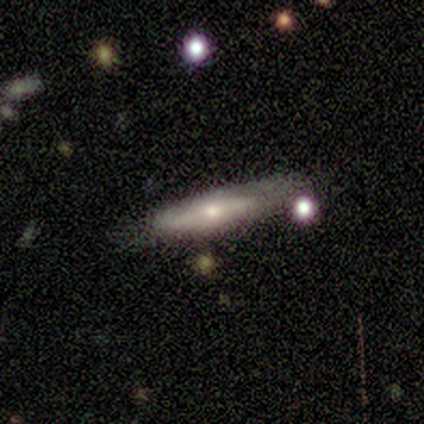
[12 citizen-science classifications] Smooth or featured: featured or disk — 50% (smooth — 42%)
Edge-on disk: yes — 83% (no — 17%)
Edge-on bulge: rounded — 80% (boxy — 20%)
Merging: none — 64% (minor disturbance — 18%)